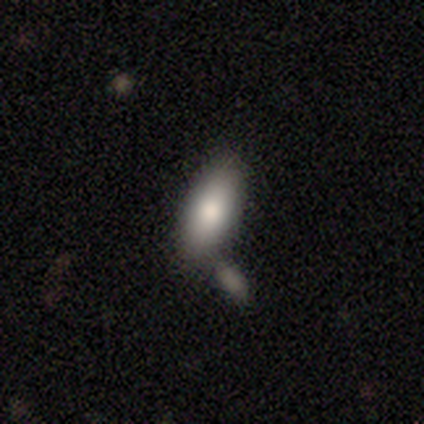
This is clearly a smooth galaxy (86%). How rounded: likely in between (67%). Merging: likely none (67%).